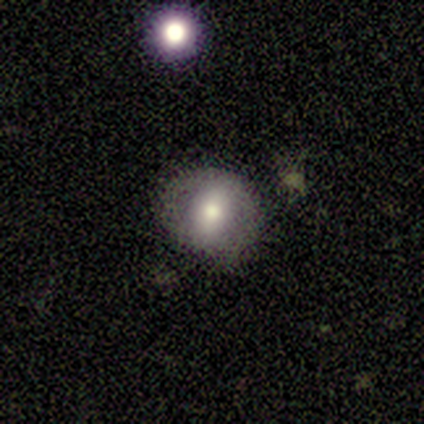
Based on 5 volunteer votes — Smooth or featured: smooth — 40% (tied with featured or disk — 40%)
How rounded: round — 50% (tied with in between — 50%)
Merging: none — 75% (minor disturbance — 25%)